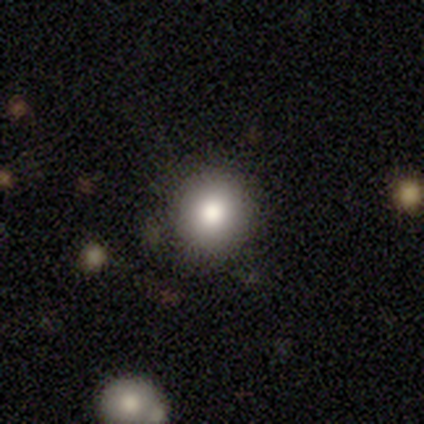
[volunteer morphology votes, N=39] Smooth or featured: smooth — 92% (featured or disk — 5%)
How rounded: round — 92% (in between — 8%)
Merging: none — 79% (minor disturbance — 3%)